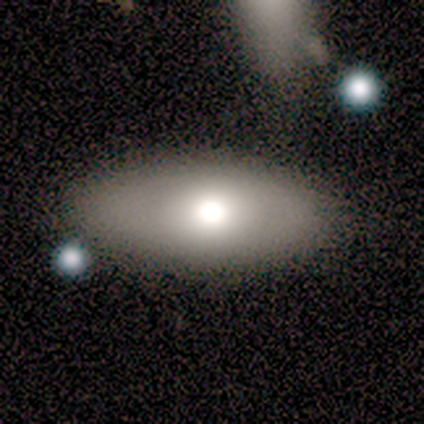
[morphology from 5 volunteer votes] smooth_or_featured: smooth (p=0.80) [alt: featured or disk p=0.20]
how_rounded: in between (p=0.75) [alt: round p=0.25]
merging: none (p=0.80) [alt: major disturbance p=0.20]